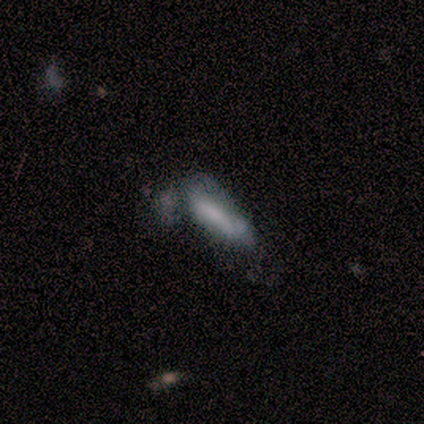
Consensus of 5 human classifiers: smooth 40% (tied), featured or disk 40% (tied), star or artifact 20%. Down the decision tree: how rounded — in between (100%); merging — merger (50%).